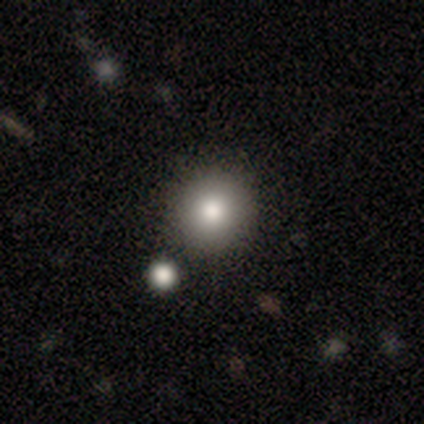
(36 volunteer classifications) Volunteers were most divided on "smooth or featured": smooth: 83%, featured or disk: 11%, star or artifact: 6%. More confident: how rounded — round (100%); merging — none (94%).